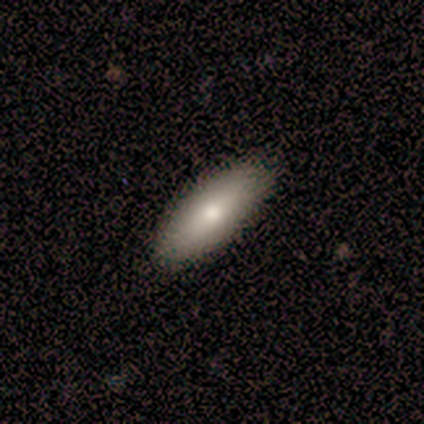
smooth-or-featured: smooth: 80% | featured or disk: 20% | star or artifact: 0%
  how-rounded: in between: 100% | round: 0% | cigar-shaped: 0%
  merging: none: 80% | minor disturbance: 20% | major disturbance: 0% | merger: 0%